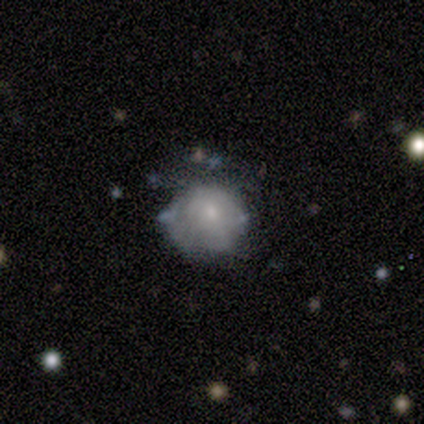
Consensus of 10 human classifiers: Overall: featured or disk (40%; smooth 30%). Edge-on disk: no (100%). Bar: no (75%). Spiral arms: no (75%). Bulge size: small (75%). Merging: minor disturbance (57%; none 43%).